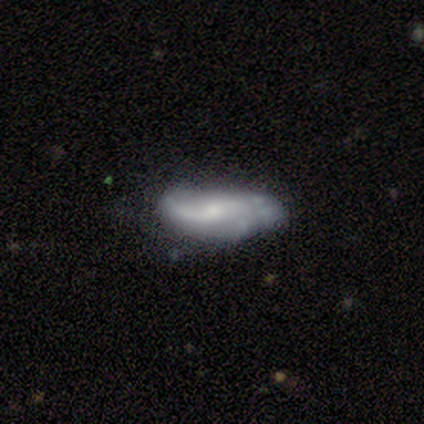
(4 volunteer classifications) Morphology: type=smooth (50%, tied with featured or disk); roundness=in between (100%); merging=none (50%).